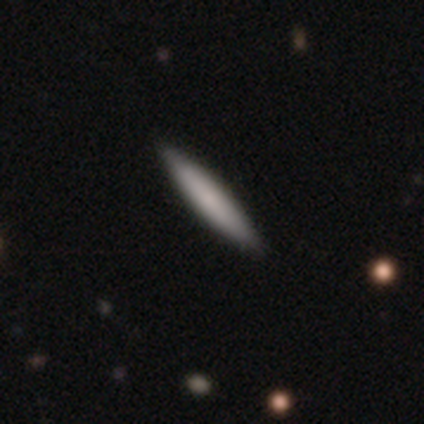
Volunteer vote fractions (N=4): A smooth galaxy with no disk features (50%, tied with featured or disk) that is cigar-shaped (100%).

Vote fractions:
- Smooth or featured? smooth: 50% (tied) / featured or disk: 50% (tied) / star or artifact: 0%
- How rounded? cigar-shaped: 100% / round: 0% / in between: 0%
- Merging? none: 100% / minor disturbance: 0% / major disturbance: 0% / merger: 0%